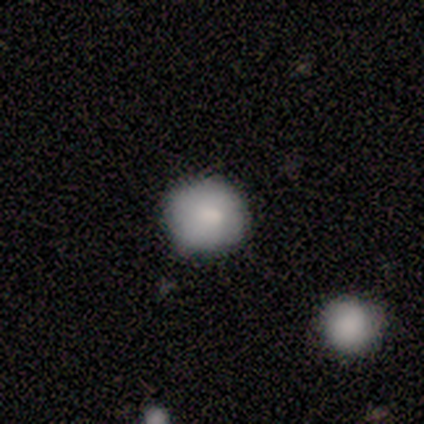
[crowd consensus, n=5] Smooth or featured?
  - smooth: 100% *
  - featured or disk: 0%
  - star or artifact: 0%
How rounded?
  - round: 100% *
  - in between: 0%
  - cigar-shaped: 0%
Merging?
  - none: 100% *
  - minor disturbance: 0%
  - major disturbance: 0%
  - merger: 0%